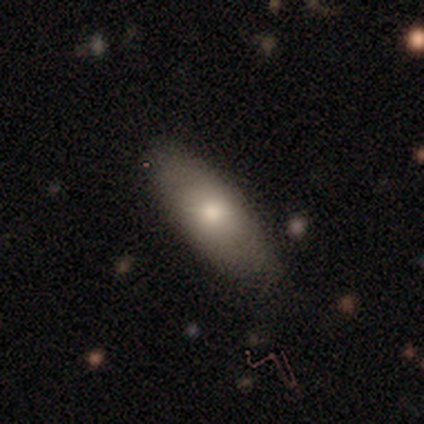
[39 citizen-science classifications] smooth-or-featured: smooth: 72% | featured or disk: 15% | star or artifact: 13%
  how-rounded: in between: 75% | cigar-shaped: 25% | round: 0%
  merging: none: 79% | minor disturbance: 15% | major disturbance: 6% | merger: 0%